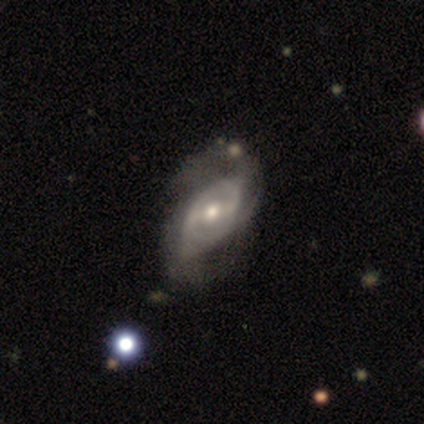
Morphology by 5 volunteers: Smooth or featured? featured or disk (80%)
Edge-on disk? no (100%)
Bar? strong (50%, tied with weak)
Spiral arms? yes (100%)
Spiral winding? loose (75%)
Spiral arm count? 2 (75%)
Bulge size? moderate (100%)
Merging? none (80%)